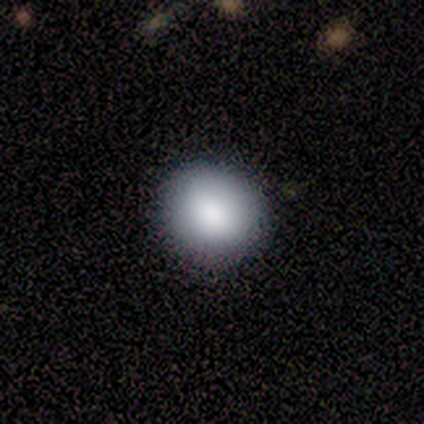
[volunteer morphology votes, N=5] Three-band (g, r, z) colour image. It shows a smooth galaxy with no disk features (100%) that is round (100%). Merging: none (100%).